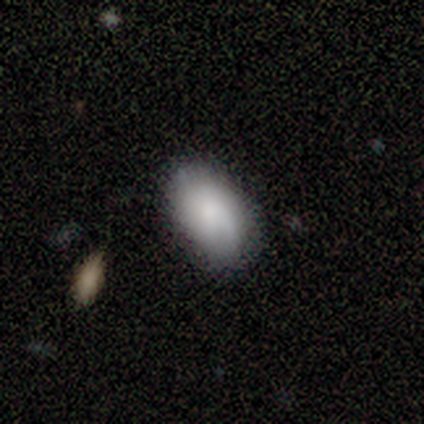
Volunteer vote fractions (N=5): Smooth or featured: smooth — 80% (featured or disk — 20%)
How rounded: in between — 75% (round — 25%)
Merging: none — 60% (minor disturbance — 40%)